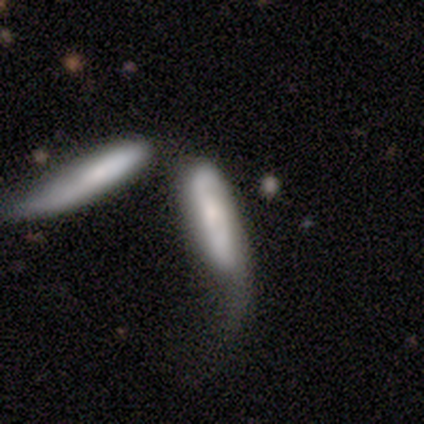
A smooth galaxy with no disk features (60%) that is cigar-shaped (100%). Merging: major disturbance (40%, tied with merger).